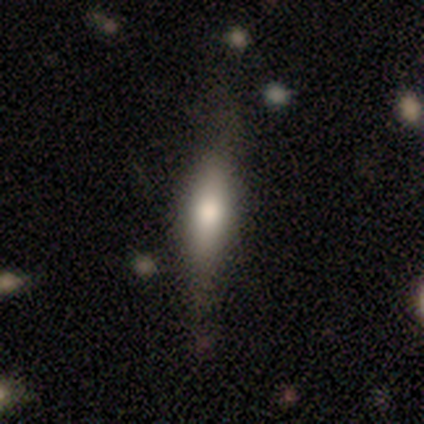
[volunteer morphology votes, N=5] Volunteers were most divided on "merging": none: 60%, major disturbance: 20%, merger: 20%, minor disturbance: 0%. More confident: smooth or featured — smooth (80%); how rounded — cigar-shaped (75%).